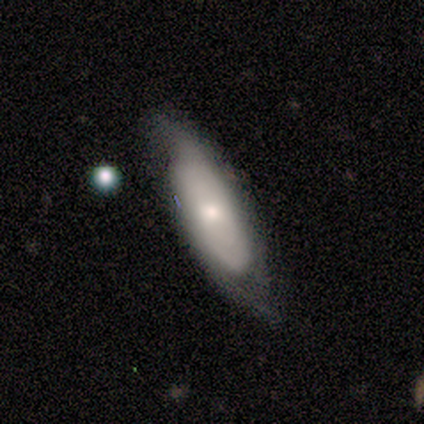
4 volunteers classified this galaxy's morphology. A smooth galaxy with no disk features (50%, tied with featured or disk) that is in between round and cigar-shaped (100%).

Vote fractions:
- Smooth or featured? smooth: 50% (tied) / featured or disk: 50% (tied) / star or artifact: 0%
- How rounded? in between: 100% / round: 0% / cigar-shaped: 0%
- Merging? none: 75% / minor disturbance: 25% / major disturbance: 0% / merger: 0%